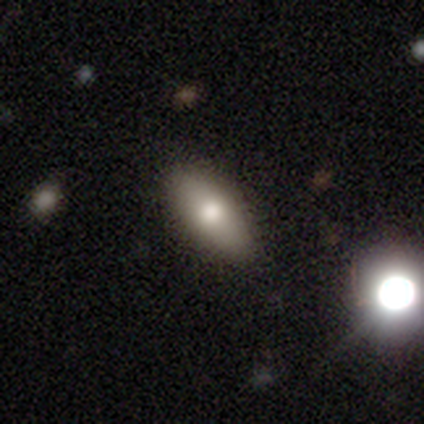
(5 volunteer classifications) smooth-or-featured: smooth: 80% | star or artifact: 20% | featured or disk: 0%
  how-rounded: in between: 75% | cigar-shaped: 25% | round: 0%
  merging: none: 100% | minor disturbance: 0% | major disturbance: 0% | merger: 0%